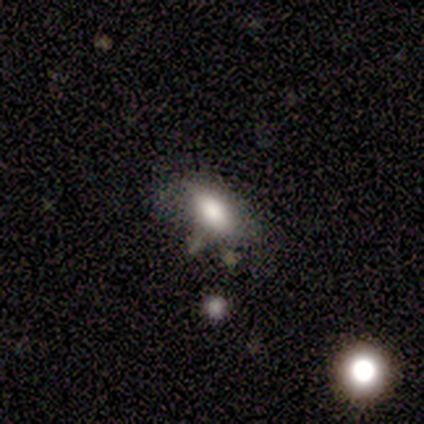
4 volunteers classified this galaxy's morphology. smooth_or_featured: smooth (p=0.75) [alt: featured or disk p=0.25]
how_rounded: in between (p=1.00)
merging: minor disturbance (p=0.50) [alt: none p=0.25]